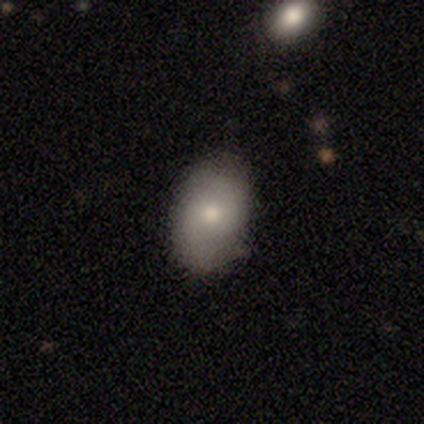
Smooth or featured? 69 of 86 (80%) said smooth. How rounded? 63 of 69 (91%) said in between. Merging? 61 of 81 (75%) said none.